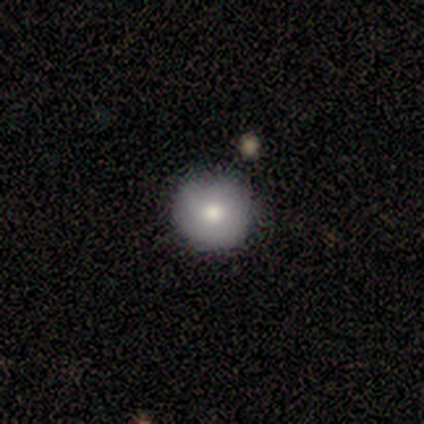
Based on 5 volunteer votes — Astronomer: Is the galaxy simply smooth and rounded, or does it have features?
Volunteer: smooth — 80%.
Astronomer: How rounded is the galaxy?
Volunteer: round — 100%.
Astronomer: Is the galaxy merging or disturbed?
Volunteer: none — 60% (runner-up: minor disturbance, 40%).